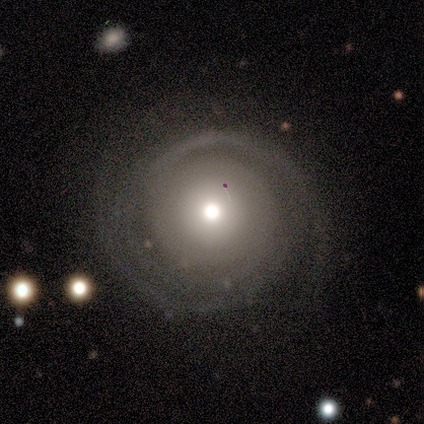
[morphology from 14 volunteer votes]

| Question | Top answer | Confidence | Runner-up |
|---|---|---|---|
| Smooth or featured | featured or disk | 79% | smooth (21%) |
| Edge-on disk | no | 91% | yes (9%) |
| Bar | no | 100% | — |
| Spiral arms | yes | 100% | — |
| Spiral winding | tight | 70% | medium (30%) |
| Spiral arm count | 2 | 50% | 3 (20%) |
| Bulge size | moderate | 50% | large (20%) |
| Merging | none | 86% | minor disturbance (7%) |